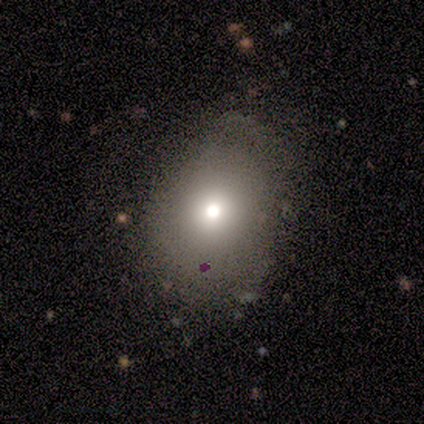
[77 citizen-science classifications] Smooth or featured? smooth (75%)
How rounded? in between (60%)
Merging? none (38%)